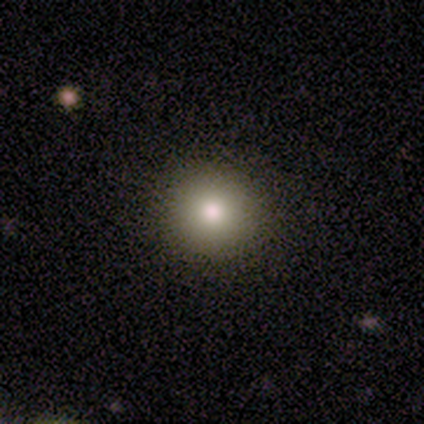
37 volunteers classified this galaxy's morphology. Overall: smooth (76%). How rounded: round (89%). Merging: none (91%).